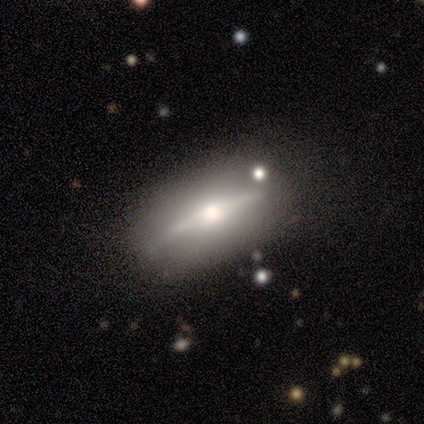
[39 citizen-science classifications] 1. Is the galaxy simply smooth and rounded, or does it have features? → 74% featured or disk, 23% smooth, 3% star or artifact.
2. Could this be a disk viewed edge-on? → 90% yes, 10% no.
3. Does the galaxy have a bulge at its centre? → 92% rounded, 8% boxy, 0% none.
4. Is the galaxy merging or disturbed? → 76% none, 13% minor disturbance, 8% major disturbance, 3% merger.